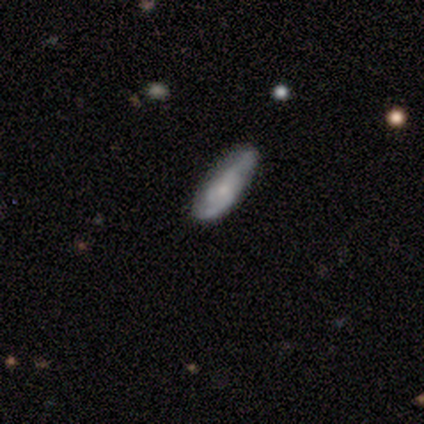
Morphology: type=smooth (50%, tied with featured or disk); roundness=cigar-shaped (100%); merging=none (25%, tied with minor disturbance, major disturbance and merger).